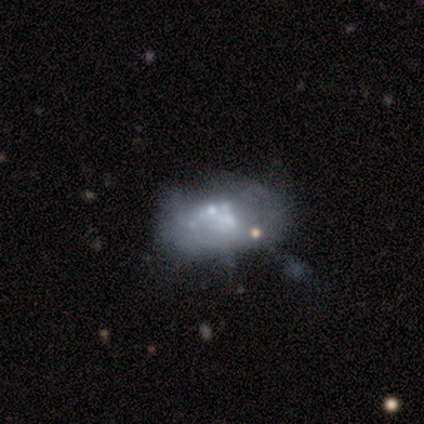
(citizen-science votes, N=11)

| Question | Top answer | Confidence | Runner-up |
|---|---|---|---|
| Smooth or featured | featured or disk | 45% | smooth (27%) |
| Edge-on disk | no | 100% | — |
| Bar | no | 100% | — |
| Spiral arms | no | 100% | — |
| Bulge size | small | 40% | tied: none (40%) |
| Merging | minor disturbance | 75% | merger (25%) |